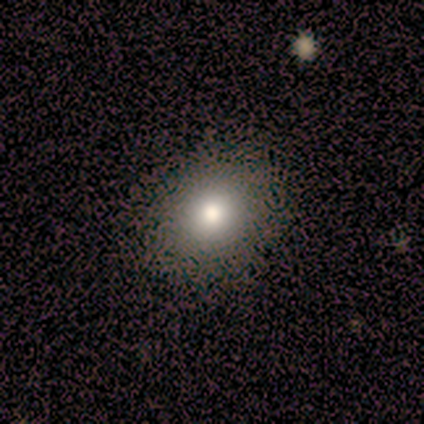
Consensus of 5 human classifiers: Volunteers were most divided on "smooth or featured" (2-way tie): smooth: 40%, featured or disk: 40%, star or artifact: 20%; "how rounded" (2-way tie): round: 50%, in between: 50%, cigar-shaped: 0%; "merging" (2-way tie): none: 50%, minor disturbance: 50%, major disturbance: 0%, merger: 0%.